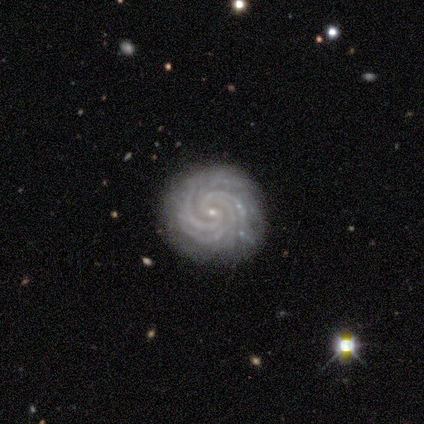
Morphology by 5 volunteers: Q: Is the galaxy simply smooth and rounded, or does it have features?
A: featured or disk — 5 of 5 (100%).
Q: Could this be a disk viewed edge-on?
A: no — 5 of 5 (100%).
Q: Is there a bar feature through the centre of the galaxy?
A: weak — 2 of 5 (40%, tied with no).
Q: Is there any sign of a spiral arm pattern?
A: yes — 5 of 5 (100%).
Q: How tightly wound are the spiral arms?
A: tight — 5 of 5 (100%).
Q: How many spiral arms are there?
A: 3 — 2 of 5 (40%, tied with more than 4).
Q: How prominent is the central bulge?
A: small — 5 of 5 (100%).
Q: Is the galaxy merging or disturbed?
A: none — 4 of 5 (80%).